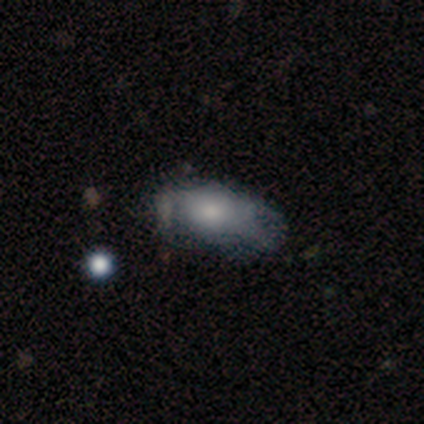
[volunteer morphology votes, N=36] This appears to be a smooth galaxy with no disk features (67%) that is in between round and cigar-shaped (92%). Merging: none (47%).